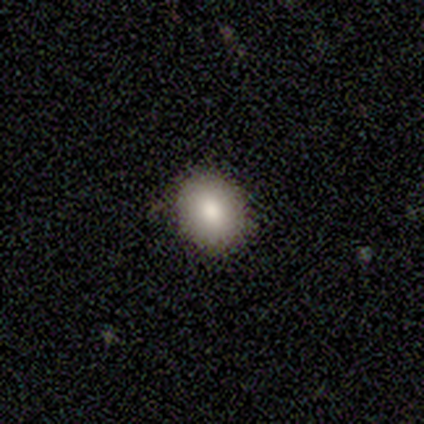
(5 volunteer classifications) Smooth or featured? smooth (80%)
How rounded? round (50%, tied with in between)
Merging? none (100%)